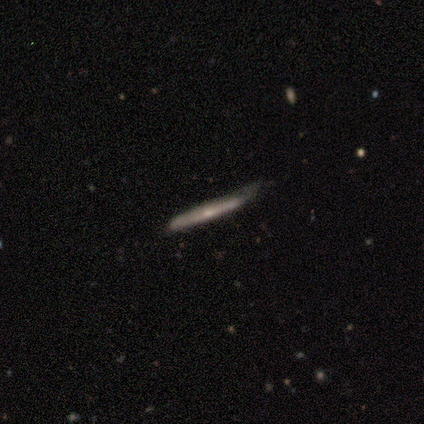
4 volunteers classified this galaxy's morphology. Overall: smooth (50%, tied with featured or disk). How rounded: cigar-shaped (100%). Merging: minor disturbance (100%).